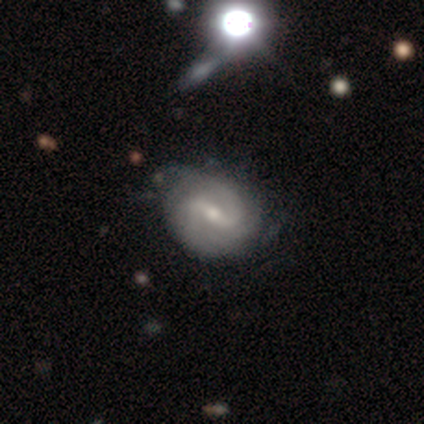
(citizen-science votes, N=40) Morphology: type=featured or disk (90%); edge-on=no (97%); bar=weak (60%); spiral arms=yes (97%); winding=tight (38%); arm count=2 (79%); bulge=moderate (43%, tied with small); merging=none (61%).